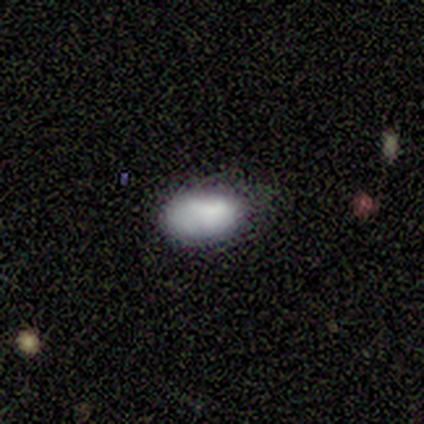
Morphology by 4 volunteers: This appears to be a smooth galaxy with no disk features (50%) that is in between round and cigar-shaped (100%). Merging: minor disturbance (67%).